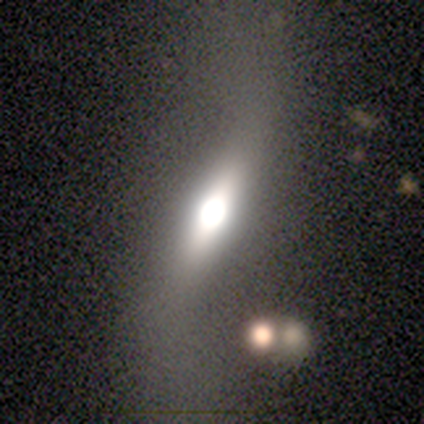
Smooth or featured? 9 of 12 (75%) said featured or disk. Edge-on disk? 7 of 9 (78%) said yes. Edge-on bulge? 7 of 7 (100%) said rounded. Merging? 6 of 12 (50%) said none.